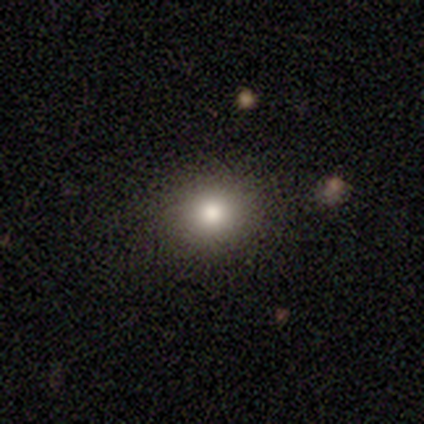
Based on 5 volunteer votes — Morphology: type=star or artifact (60%).